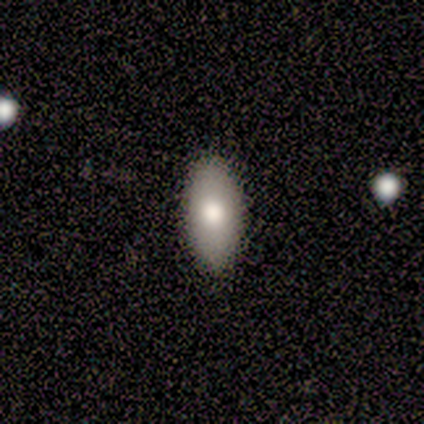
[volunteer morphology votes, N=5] smooth 80%, featured or disk 20%, star or artifact 0%. Down the decision tree: how rounded — in between (100%); merging — none (80%).